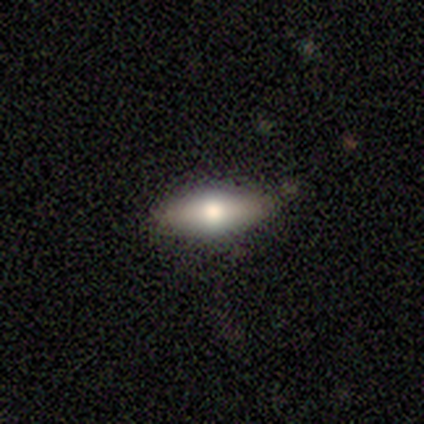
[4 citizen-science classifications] Overall: smooth (50%, tied with featured or disk). How rounded: in between (100%). Merging: none (50%; minor disturbance 25%).